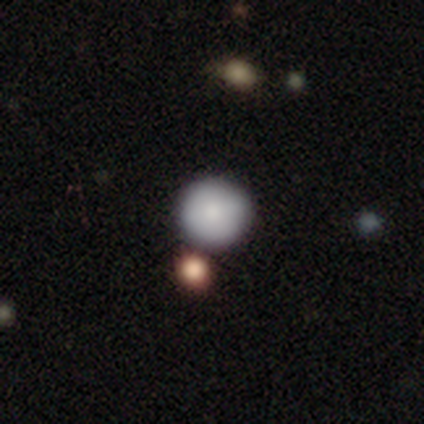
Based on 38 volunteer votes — Morphology: type=smooth (84%); roundness=round (97%); merging=none (69%).